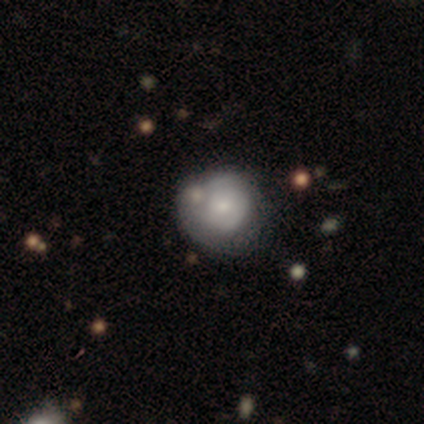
This appears to be a featured or disk galaxy (60%) with no bar (100%), no spiral arms (67%) and a moderate central bulge (67%). Merging: none (60%).